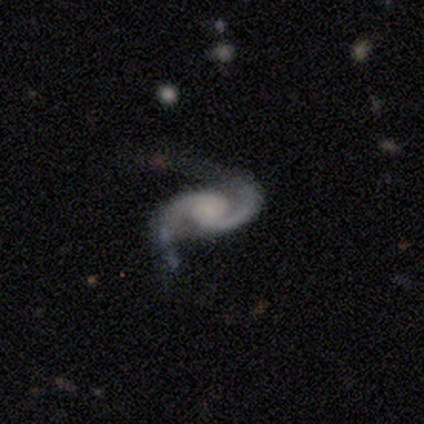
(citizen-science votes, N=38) A featured or disk galaxy (97%) with no bar (67%), 2 (97%) medium (58%) spiral arms (100%) and no central bulge (33%).

Vote fractions:
- Smooth or featured? featured or disk: 97% / star or artifact: 3% / smooth: 0%
- Edge-on disk? no: 97% / yes: 3%
- Bar? no: 67% / weak: 25% / strong: 8%
- Spiral arms? yes: 100% / no: 0%
- Spiral winding? medium: 58% / tight: 22% / loose: 19%
- Spiral arm count? 2: 97% / can't tell: 3% / 1: 0% / 3: 0% / 4: 0% / more than 4: 0%
- Bulge size? none: 33% / moderate: 25% / small: 25% / large: 14% / dominant: 3%
- Merging? none: 65% / major disturbance: 19% / minor disturbance: 14% / merger: 3%